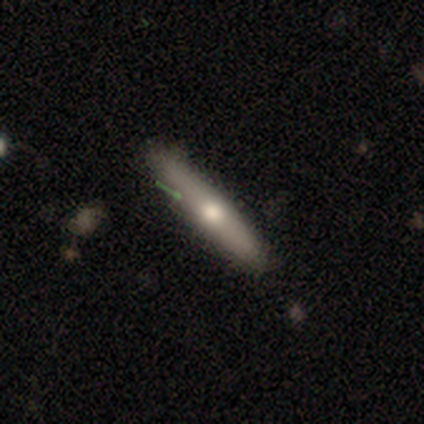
Overall: smooth (50%, tied with featured or disk). How rounded: cigar-shaped (100%). Merging: none (100%).